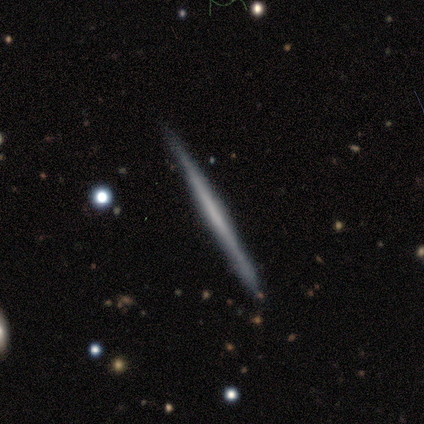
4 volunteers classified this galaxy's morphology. This appears to be a smooth galaxy with no disk features (75%) that is cigar-shaped (100%). Merging: none (100%).